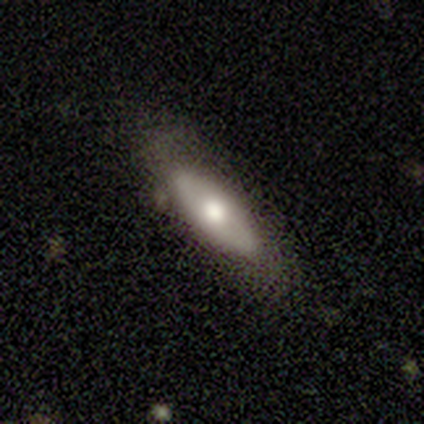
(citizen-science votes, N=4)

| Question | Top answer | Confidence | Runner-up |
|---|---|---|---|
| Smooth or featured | featured or disk | 75% | smooth (25%) |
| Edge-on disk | yes | 67% | no (33%) |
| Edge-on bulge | rounded | 100% | — |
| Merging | none | 75% | major disturbance (25%) |